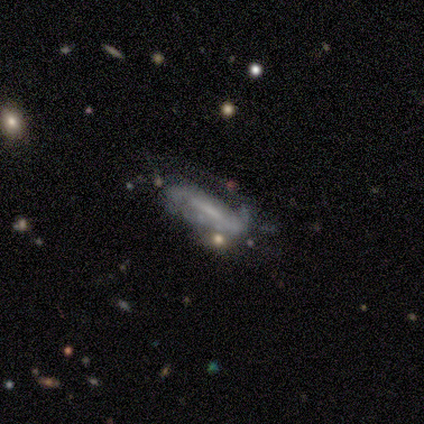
featured or disk 75%, smooth 25%, star or artifact 0%. Down the decision tree: edge-on disk — no (100%); bar — strong (100%); spiral arms — yes (100%); spiral arm count — 1 (33%, tied with 2 and 3); spiral winding — tight (33%, tied with medium and loose); bulge size — none (67%); merging — none (50%).